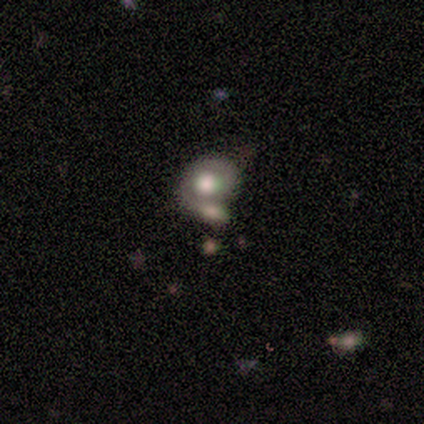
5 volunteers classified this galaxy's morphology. Overall: smooth (40%, tied with star or artifact). How rounded: in between (100%). Merging: merger (67%; none 33%).